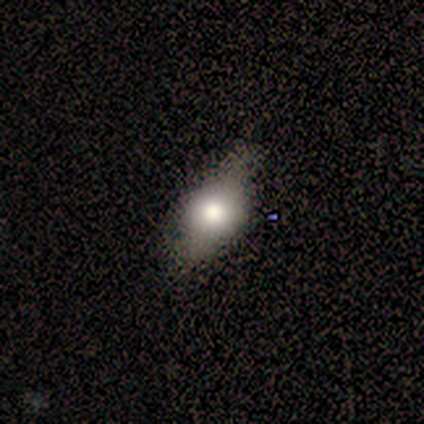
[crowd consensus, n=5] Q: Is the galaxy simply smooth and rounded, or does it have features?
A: featured or disk — 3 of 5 (60%).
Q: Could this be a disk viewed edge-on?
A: yes — 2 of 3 (67%).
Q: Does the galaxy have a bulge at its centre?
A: rounded — 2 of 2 (100%).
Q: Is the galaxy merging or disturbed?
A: none — 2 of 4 (50%, tied with minor disturbance).